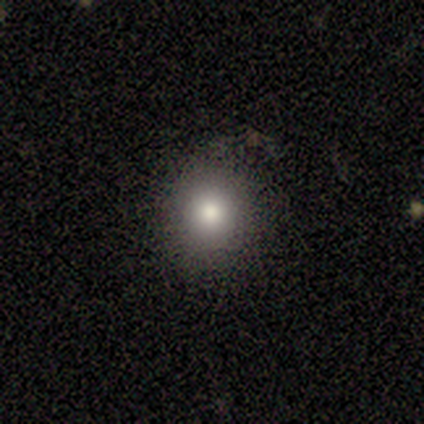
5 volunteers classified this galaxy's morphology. This appears to be a smooth galaxy with no disk features (60%) that is round (100%). Merging: none (100%).